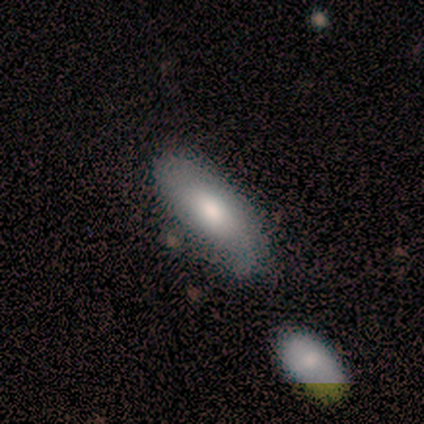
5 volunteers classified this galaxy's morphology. Volunteers were most divided on "smooth or featured": smooth: 60%, featured or disk: 40%, star or artifact: 0%. More confident: how rounded — in between (100%); merging — minor disturbance (60%).